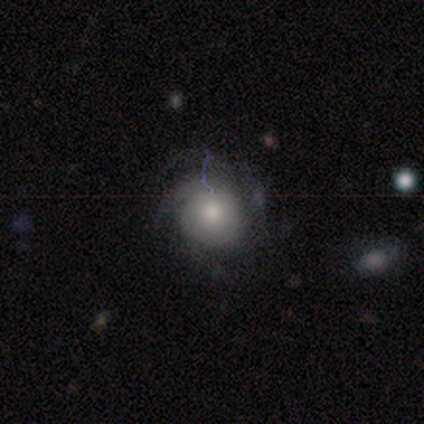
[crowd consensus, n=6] A featured or disk galaxy (67%) with no bar (100%), 2 (33%, tied with 3 and can't tell) tight (67%) spiral arms (75%) and a moderate central bulge (100%). Merging: none (33%, tied with minor disturbance and major disturbance).